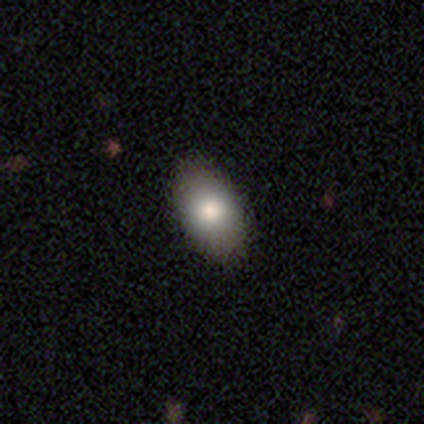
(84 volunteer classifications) Morphology: type=smooth (82%); roundness=in between (94%); merging=none (88%).